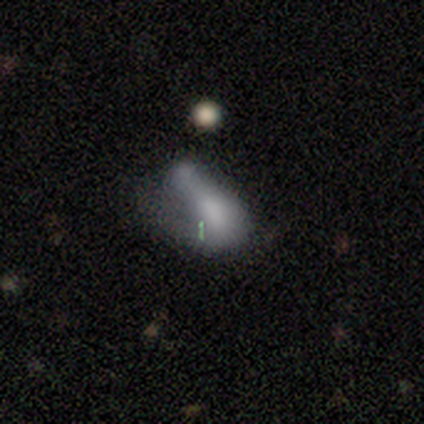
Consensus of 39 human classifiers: Smooth or featured?
  - smooth: 54% *
  - featured or disk: 33%
  - star or artifact: 13%
How rounded?
  - in between: 90% *
  - cigar-shaped: 10%
  - round: 0%
Merging?
  - merger: 50% *
  - major disturbance: 29%
  - minor disturbance: 15%
  - none: 6%